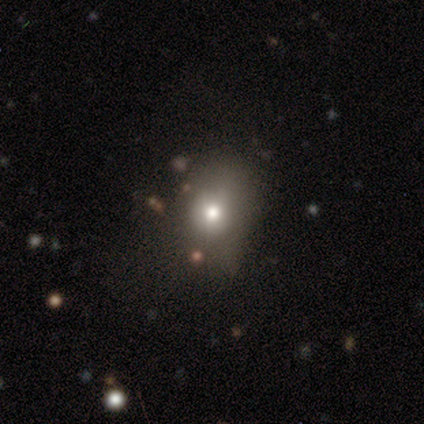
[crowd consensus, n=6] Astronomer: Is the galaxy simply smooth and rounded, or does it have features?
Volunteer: smooth — 50% (runner-up: star or artifact, 33%).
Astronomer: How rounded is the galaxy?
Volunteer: round — 100%.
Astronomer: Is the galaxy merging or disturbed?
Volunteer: none — 25%, tied with minor disturbance, major disturbance and merger at 25%.